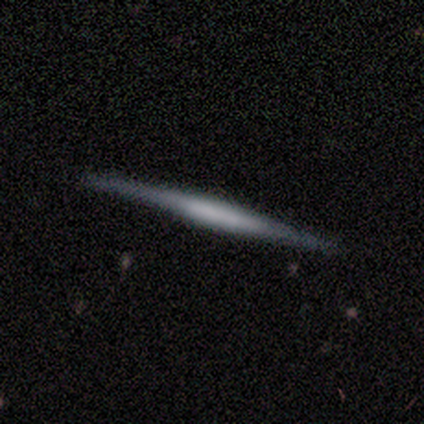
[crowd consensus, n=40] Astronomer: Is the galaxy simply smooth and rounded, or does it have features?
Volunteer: featured or disk — 82%.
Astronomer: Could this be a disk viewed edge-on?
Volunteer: yes — 100%.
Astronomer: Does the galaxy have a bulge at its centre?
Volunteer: none — 61%.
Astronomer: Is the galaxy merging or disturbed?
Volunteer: none — 65%.